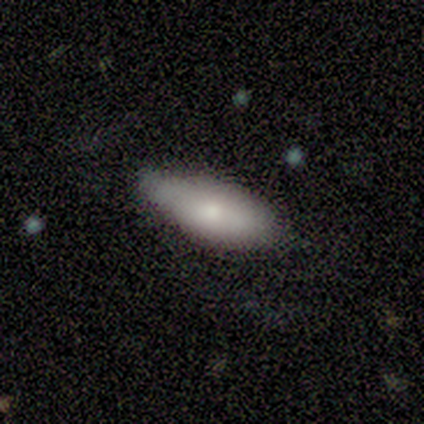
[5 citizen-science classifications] A smooth galaxy with no disk features (80%) that is in between round and cigar-shaped (100%). Merging: none (80%).